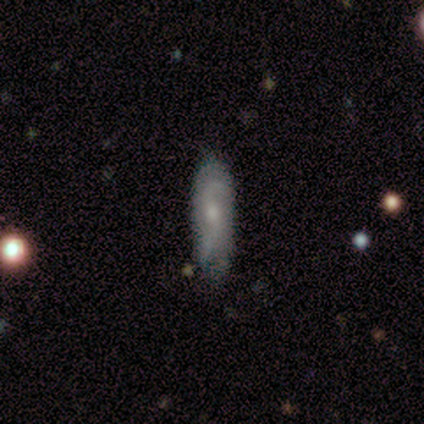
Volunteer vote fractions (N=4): Overall: smooth (50%, tied with featured or disk). How rounded: in between (50%, tied with cigar-shaped). Merging: none (50%, tied with minor disturbance).